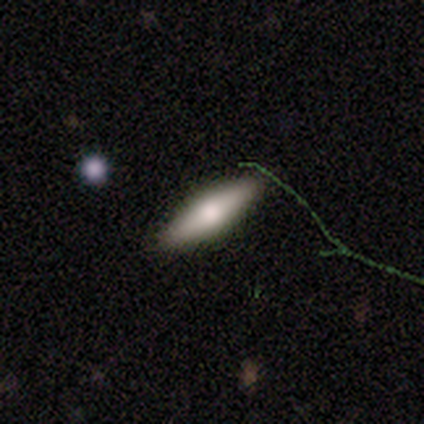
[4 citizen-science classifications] Smooth or featured? 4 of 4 (100%) said smooth. How rounded? 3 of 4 (75%) said in between. Merging? 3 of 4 (75%) said none.